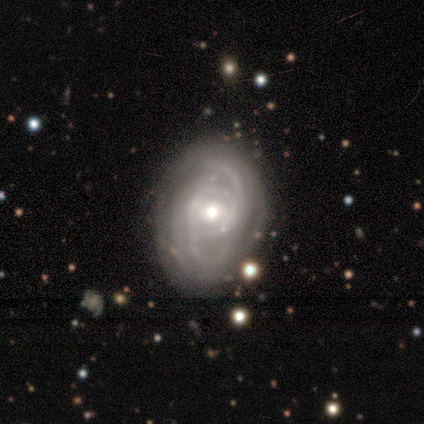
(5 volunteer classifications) Morphology: type=featured or disk (100%); edge-on=no (100%); bar=weak (60%); spiral arms=yes (100%); winding=medium (60%); arm count=2 (40%); bulge=moderate (60%); merging=none (60%).